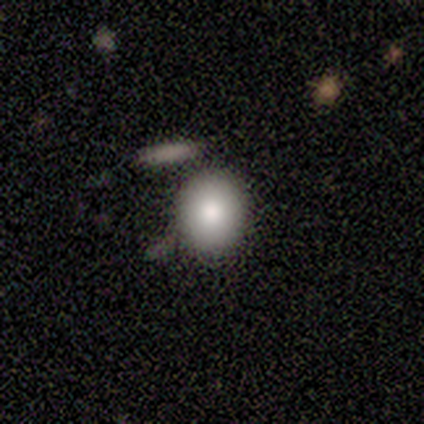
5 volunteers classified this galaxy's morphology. smooth 80%, star or artifact 20%, featured or disk 0%. Down the decision tree: how rounded — round (75%); merging — none (75%).